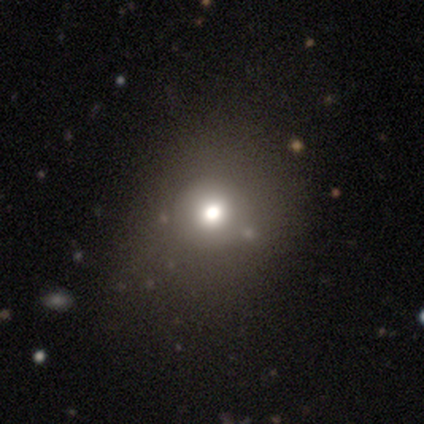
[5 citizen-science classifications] smooth_or_featured: smooth (p=1.00)
how_rounded: round (p=0.80) [alt: in between p=0.20]
merging: none (p=0.80) [alt: minor disturbance p=0.20]